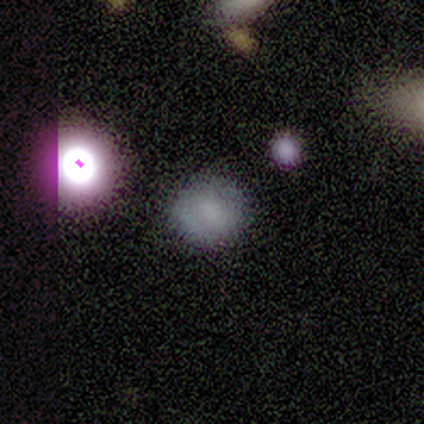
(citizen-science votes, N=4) smooth 50%, featured or disk 25%, star or artifact 25%. Down the decision tree: how rounded — round (100%); merging — none (100%).